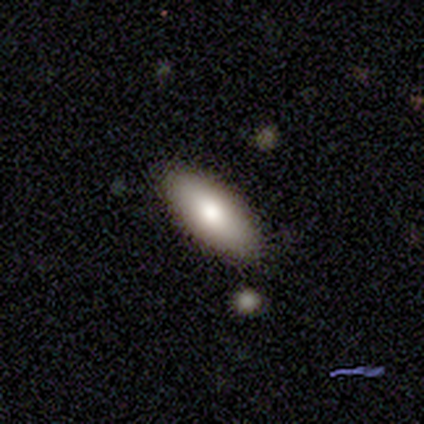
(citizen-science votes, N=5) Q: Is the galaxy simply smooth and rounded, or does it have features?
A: smooth — 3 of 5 (60%).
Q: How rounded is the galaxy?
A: in between — 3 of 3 (100%).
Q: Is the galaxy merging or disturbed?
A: none — 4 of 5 (80%).